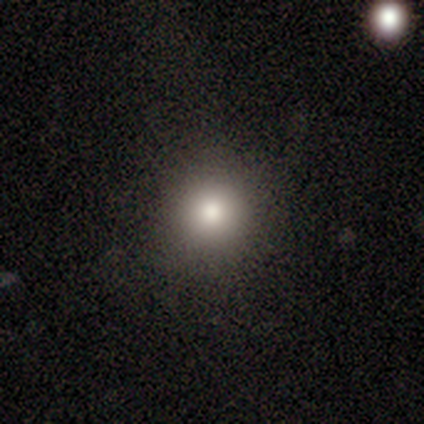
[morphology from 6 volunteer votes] smooth-or-featured: smooth: 67% | featured or disk: 17% | star or artifact: 17%
  how-rounded: round: 100% | in between: 0% | cigar-shaped: 0%
  merging: none: 100% | minor disturbance: 0% | major disturbance: 0% | merger: 0%